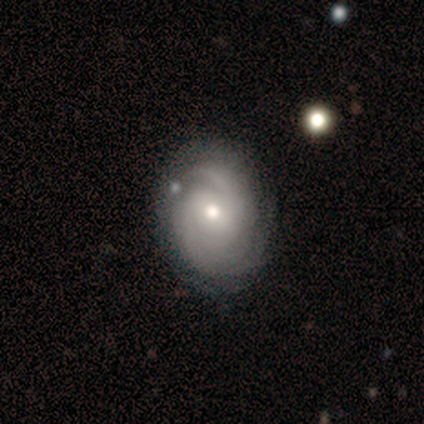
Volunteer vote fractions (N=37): A featured or disk galaxy (76%) with no bar (64%), 2 (37%, tied with can't tell) tight (70%) spiral arms (96%) and a small central bulge (50%).

Vote fractions:
- Smooth or featured? featured or disk: 76% / smooth: 22% / star or artifact: 3%
- Edge-on disk? no: 100% / yes: 0%
- Bar? no: 64% / weak: 32% / strong: 4%
- Spiral arms? yes: 96% / no: 4%
- Spiral winding? tight: 70% / medium: 19% / loose: 11%
- Spiral arm count? 2: 37% (tied) / can't tell: 37% (tied) / 3: 7% / 4: 7% / more than 4: 7% / 1: 4%
- Bulge size? small: 50% / moderate: 43% / large: 7% / dominant: 0% / none: 0%
- Merging? none: 67% / minor disturbance: 25% / merger: 6% / major disturbance: 3%